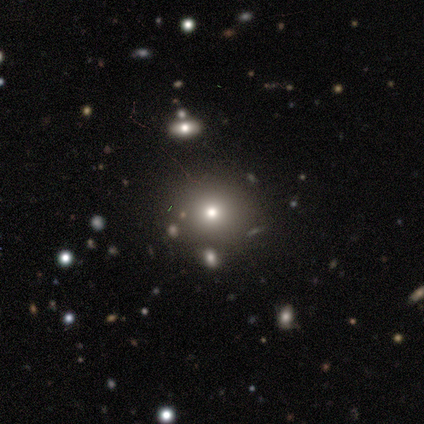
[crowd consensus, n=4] Smooth or featured? smooth (75%)
How rounded? round (100%)
Merging? none (100%)